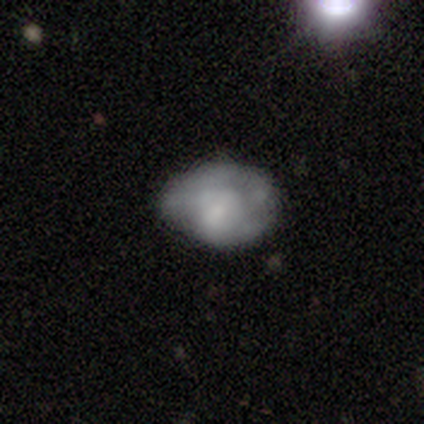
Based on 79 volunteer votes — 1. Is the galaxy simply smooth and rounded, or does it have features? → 49% smooth, 47% featured or disk, 4% star or artifact.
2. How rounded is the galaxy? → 69% in between, 31% round, 0% cigar-shaped.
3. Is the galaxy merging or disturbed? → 26% minor disturbance, 18% none, 5% major disturbance, 3% merger.